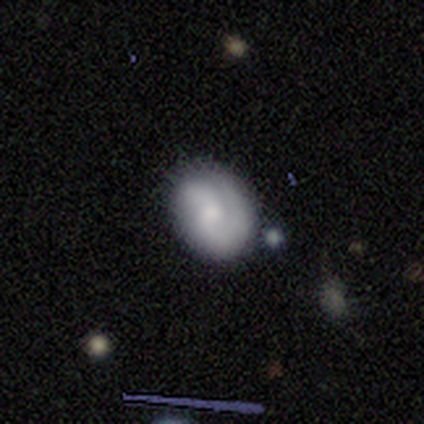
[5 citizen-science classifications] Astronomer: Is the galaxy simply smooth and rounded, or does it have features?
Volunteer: smooth — 60% (runner-up: featured or disk, 40%).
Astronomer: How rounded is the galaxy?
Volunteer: round — 100%.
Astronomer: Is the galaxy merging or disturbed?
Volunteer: none — 60% (runner-up: minor disturbance, 40%).